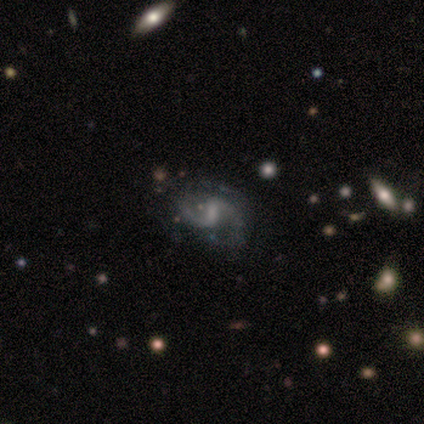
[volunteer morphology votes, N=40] A featured or disk galaxy (92%) with a weak bar (67%), 2 (94%) loose (62%) spiral arms (94%) and no central bulge (50%).

Vote fractions:
- Smooth or featured? featured or disk: 92% / star or artifact: 8% / smooth: 0%
- Edge-on disk? no: 97% / yes: 3%
- Bar? weak: 67% / strong: 19% / no: 14%
- Spiral arms? yes: 94% / no: 6%
- Spiral winding? loose: 62% / medium: 26% / tight: 12%
- Spiral arm count? 2: 94% / can't tell: 6% / 1: 0% / 3: 0% / 4: 0% / more than 4: 0%
- Bulge size? none: 50% / small: 39% / moderate: 11% / dominant: 0% / large: 0%
- Merging? none: 76% / minor disturbance: 16% / major disturbance: 8% / merger: 0%